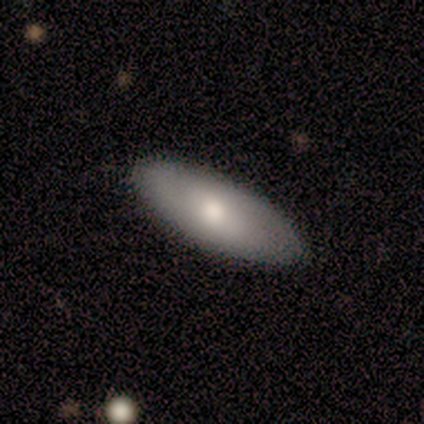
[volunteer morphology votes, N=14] Volunteers were most divided on "smooth or featured": smooth: 71%, featured or disk: 21%, star or artifact: 7%. More confident: how rounded — in between (100%); merging — none (92%).